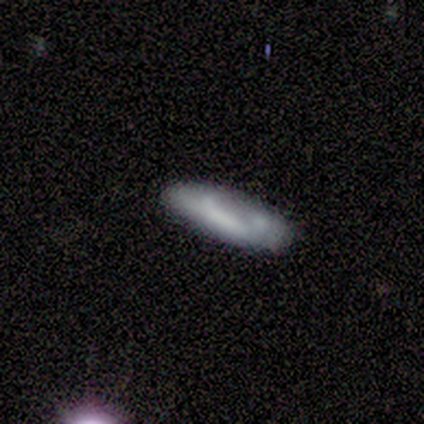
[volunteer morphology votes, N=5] Volunteers were most divided on "how rounded": in between: 67%, cigar-shaped: 33%, round: 0%. More confident: merging — none (100%); smooth or featured — smooth (60%).